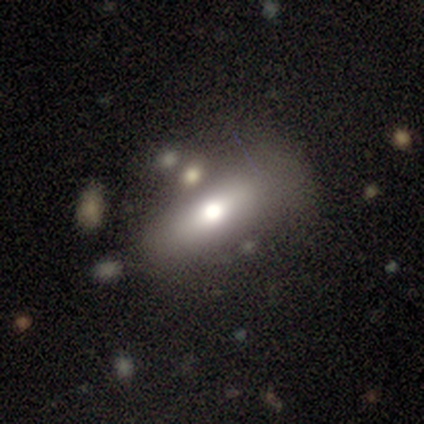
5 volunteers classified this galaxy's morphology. Overall: featured or disk (80%). Edge-on disk: yes (50%, tied with no). Edge-on bulge: rounded (100%). Merging: none (60%; major disturbance 20%).